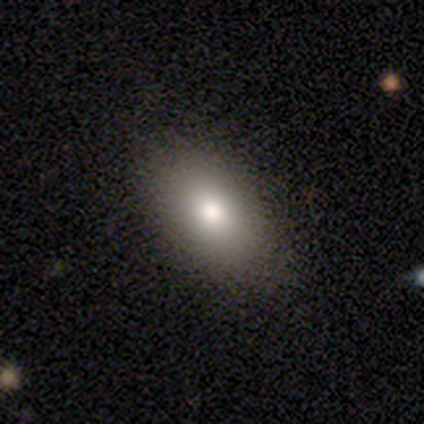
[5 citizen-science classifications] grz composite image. It shows a smooth galaxy with no disk features (100%) that is in between round and cigar-shaped (100%). Merging: none (100%).